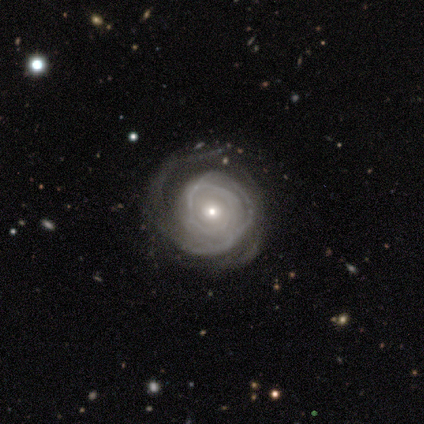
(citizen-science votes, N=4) This appears to be a featured or disk galaxy (100%) with no bar (100%), tight (75%) spiral arms (100%) and a small central bulge (100%). Merging: none (50%).